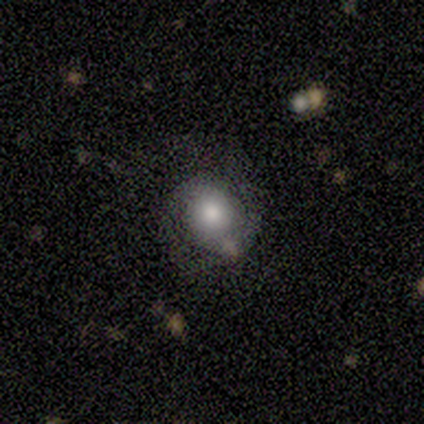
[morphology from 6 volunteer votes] This appears to be a smooth galaxy with no disk features (67%) that is round (75%). Merging: none (33%, tied with major disturbance).